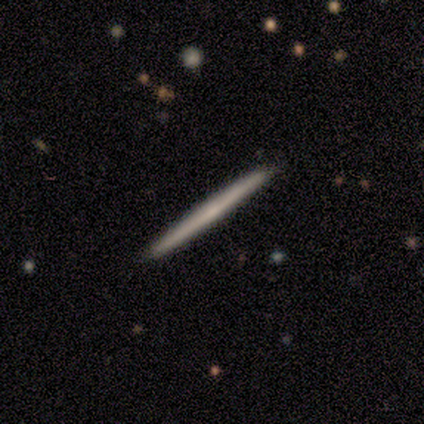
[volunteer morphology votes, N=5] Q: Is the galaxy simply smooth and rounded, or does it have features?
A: smooth — 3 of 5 (60%).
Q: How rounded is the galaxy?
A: cigar-shaped — 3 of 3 (100%).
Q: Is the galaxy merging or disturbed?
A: none — 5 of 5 (100%).